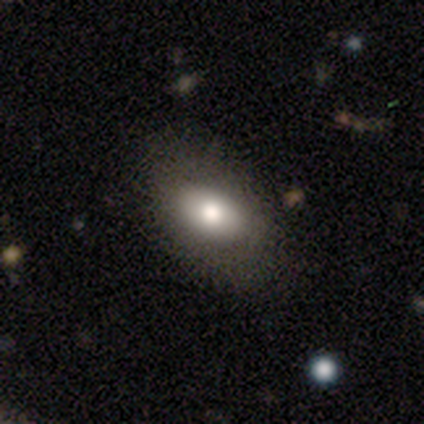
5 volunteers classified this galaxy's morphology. Volunteers were most divided on "smooth or featured": smooth: 80%, featured or disk: 20%, star or artifact: 0%. More confident: how rounded — in between (100%); merging — none (80%).